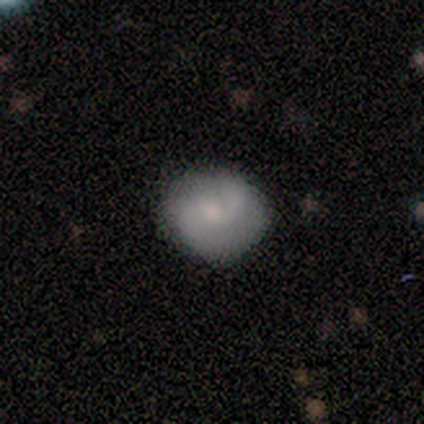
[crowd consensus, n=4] Smooth or featured?
  - featured or disk: 75% *
  - smooth: 25%
  - star or artifact: 0%
Edge-on disk?
  - no: 100% *
  - yes: 0%
Bar?
  - weak: 67% *
  - no: 33%
  - strong: 0%
Spiral arms?
  - yes: 100% *
  - no: 0%
Spiral winding?
  - medium: 67% *
  - loose: 33%
  - tight: 0%
Spiral arm count?
  - 2: 100% *
  - 1: 0%
  - 3: 0%
  - 4: 0%
  - more than 4: 0%
  - can't tell: 0%
Bulge size?
  - moderate: 100% *
  - dominant: 0%
  - large: 0%
  - small: 0%
  - none: 0%
Merging?
  - none: 100% *
  - minor disturbance: 0%
  - major disturbance: 0%
  - merger: 0%